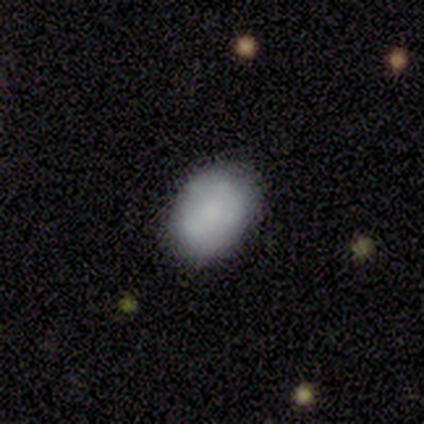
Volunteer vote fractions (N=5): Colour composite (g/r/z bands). It shows a smooth galaxy with no disk features (60%) that is in between round and cigar-shaped (100%). Merging: none (100%).